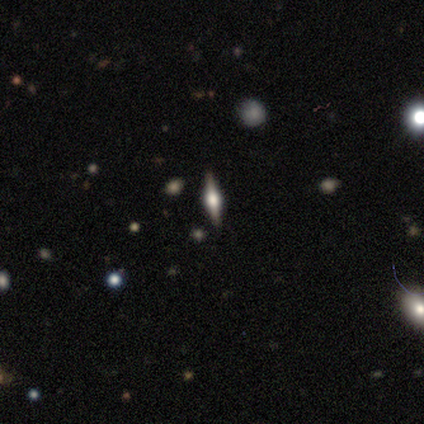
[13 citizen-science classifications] Morphology: type=featured or disk (92%); edge-on=yes (100%); edge-on bulge=rounded (92%); merging=none (100%).